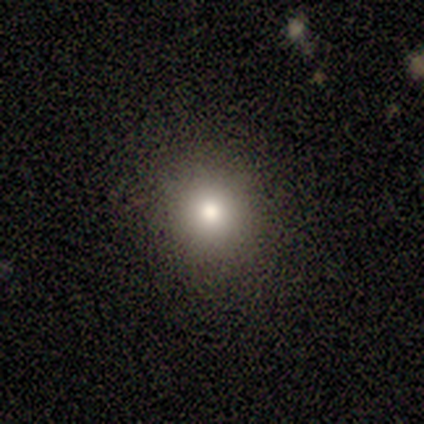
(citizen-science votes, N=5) Smooth or featured? 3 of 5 (60%) said smooth. How rounded? 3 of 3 (100%) said round. Merging? 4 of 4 (100%) said none.